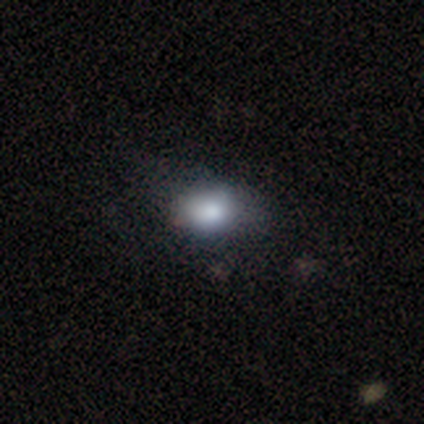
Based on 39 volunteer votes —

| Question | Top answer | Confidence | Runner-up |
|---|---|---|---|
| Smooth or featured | smooth | 82% | featured or disk (10%) |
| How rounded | in between | 53% | round (47%) |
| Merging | none | 47% | minor disturbance (17%) |